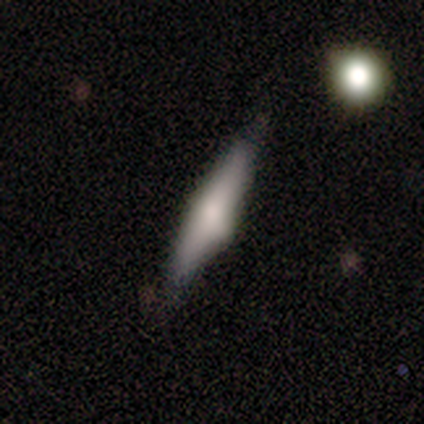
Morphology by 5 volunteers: A smooth galaxy with no disk features (60%) that is cigar-shaped (67%).

Vote fractions:
- Smooth or featured? smooth: 60% / featured or disk: 40% / star or artifact: 0%
- How rounded? cigar-shaped: 67% / in between: 33% / round: 0%
- Merging? none: 60% / minor disturbance: 40% / major disturbance: 0% / merger: 0%